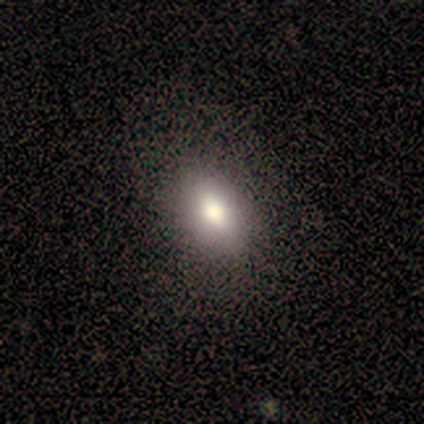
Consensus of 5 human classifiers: Smooth or featured? 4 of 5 (80%) said smooth. How rounded? 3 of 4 (75%) said in between. Merging? 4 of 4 (100%) said none.